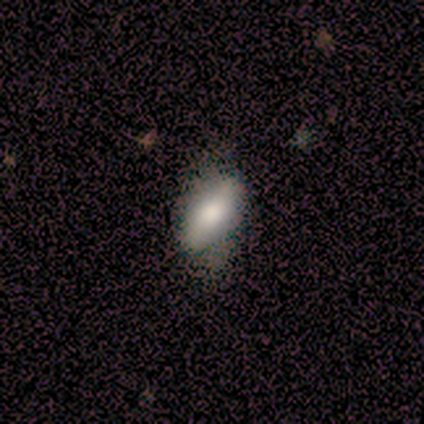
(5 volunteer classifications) smooth-or-featured: featured or disk: 80% | smooth: 20% | star or artifact: 0%
  disk-edge-on: yes: 50% (tied) | no: 50% (tied)
    edge-on-bulge: none: 50% (tied) | rounded: 50% (tied) | boxy: 0%
  merging: none: 60% | minor disturbance: 20% | major disturbance: 20% | merger: 0%